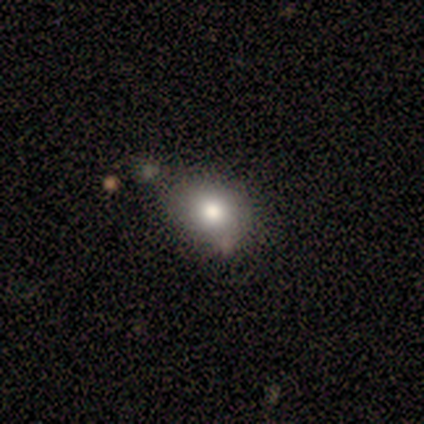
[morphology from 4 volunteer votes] A smooth galaxy with no disk features (50%) that is in between round and cigar-shaped (100%). Merging: none (33%, tied with minor disturbance and merger).